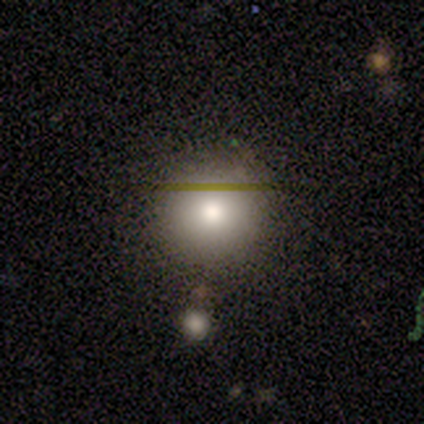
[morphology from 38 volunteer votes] A smooth galaxy with no disk features (55%) that is round (95%).

Vote fractions:
- Smooth or featured? smooth: 55% / star or artifact: 24% / featured or disk: 21%
- How rounded? round: 95% / in between: 5% / cigar-shaped: 0%
- Merging? none: 66% / minor disturbance: 21% / major disturbance: 7% / merger: 7%